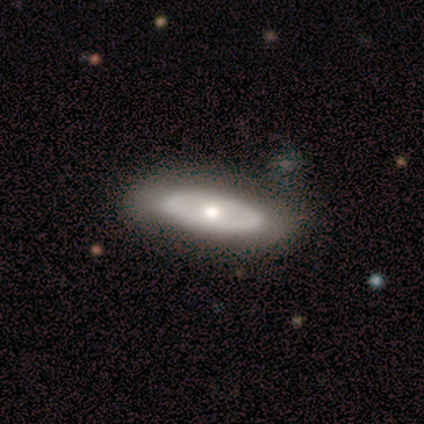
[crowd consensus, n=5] Smooth or featured?
  - smooth: 60% *
  - featured or disk: 40%
  - star or artifact: 0%
How rounded?
  - cigar-shaped: 67% *
  - in between: 33%
  - round: 0%
Merging?
  - none: 80% *
  - merger: 20%
  - minor disturbance: 0%
  - major disturbance: 0%